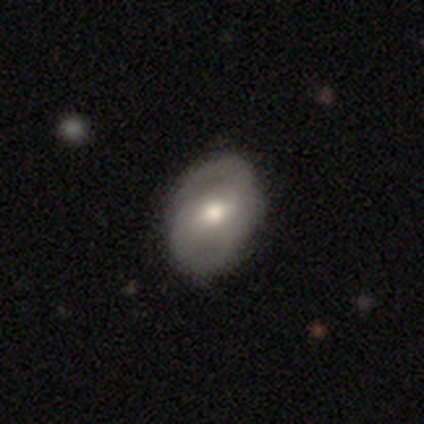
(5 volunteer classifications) This is likely a featured or disk galaxy (60%). It is clearly not viewed edge-on (100%). Bar: likely strong (67%). Spiral arm pattern: likely yes (67%). Spiral arm count: possibly 1 (50%, tied with 2). Spiral winding: possibly medium (50%, tied with loose). Central bulge: clearly moderate (100%). Merging: clearly none (80%).